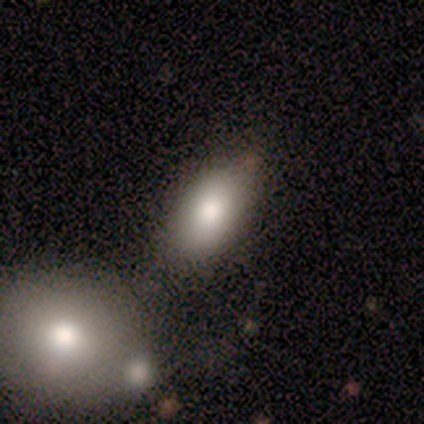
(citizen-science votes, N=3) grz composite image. It shows a smooth galaxy with no disk features (100%) that is in between round and cigar-shaped (100%). Merging: merger (67%).